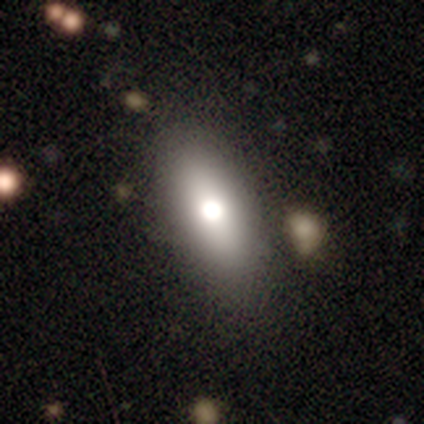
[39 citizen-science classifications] A smooth galaxy with no disk features (74%) that is in between round and cigar-shaped (86%). Merging: none (84%).